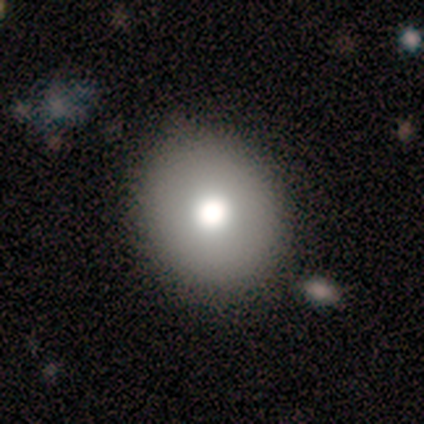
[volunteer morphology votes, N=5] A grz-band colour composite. It shows a smooth galaxy with no disk features (80%) that is round (75%). Merging: none (80%).